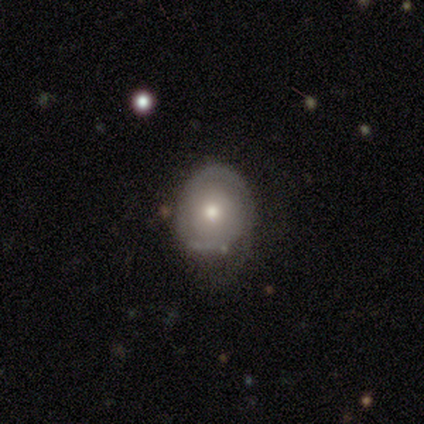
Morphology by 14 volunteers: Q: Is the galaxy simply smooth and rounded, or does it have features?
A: smooth — 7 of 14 (50%).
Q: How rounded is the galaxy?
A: round — 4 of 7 (57%).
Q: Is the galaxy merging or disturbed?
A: none — 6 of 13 (46%, tied with minor disturbance).